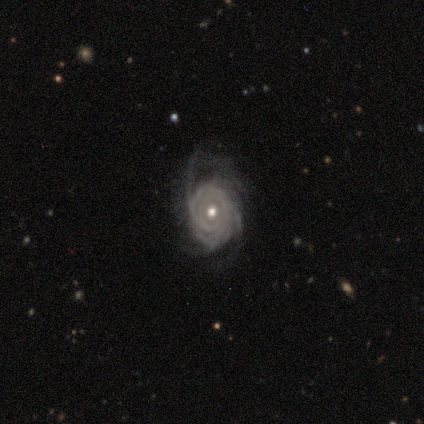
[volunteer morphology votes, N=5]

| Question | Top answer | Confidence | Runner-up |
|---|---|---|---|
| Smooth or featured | featured or disk | 80% | smooth (20%) |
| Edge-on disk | no | 100% | — |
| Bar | no | 100% | — |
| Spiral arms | yes | 100% | — |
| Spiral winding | tight | 50% | tied: loose (50%) |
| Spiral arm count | more than 4 | 50% | tied: can't tell (50%) |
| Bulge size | moderate | 100% | — |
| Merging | none | 80% | minor disturbance (20%) |